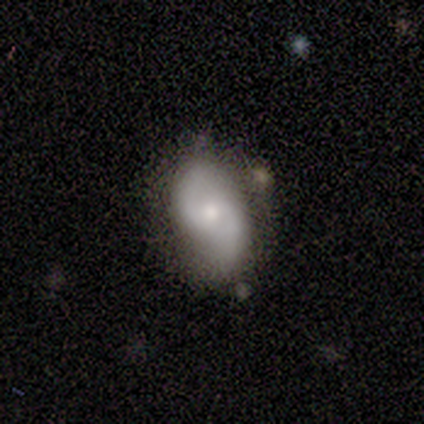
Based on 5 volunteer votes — Smooth or featured? 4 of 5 (80%) said featured or disk. Edge-on disk? 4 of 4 (100%) said no. Bar? 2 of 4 (50%, tied with no) said weak. Spiral arms? 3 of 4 (75%) said yes. Spiral winding? 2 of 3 (67%) said medium. Spiral arm count? 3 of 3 (100%) said 2. Bulge size? 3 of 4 (75%) said moderate. Merging? 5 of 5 (100%) said none.